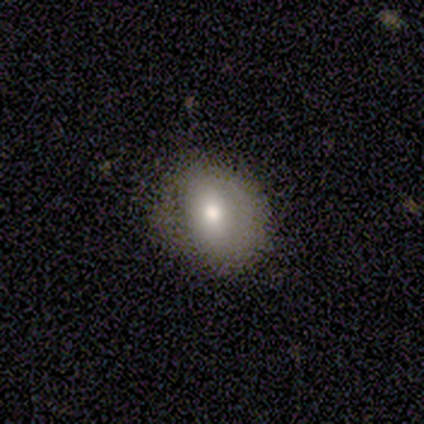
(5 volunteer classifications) smooth_or_featured: smooth (p=0.80) [alt: featured or disk p=0.20]
how_rounded: round (p=0.75) [alt: in between p=0.25]
merging: none (p=0.80) [alt: minor disturbance p=0.20]